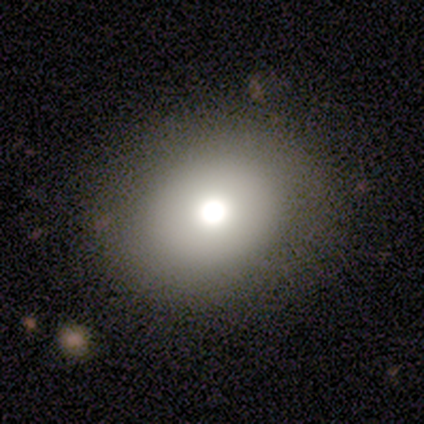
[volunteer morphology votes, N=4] Overall: smooth (100%). How rounded: in between (75%). Merging: none (75%).